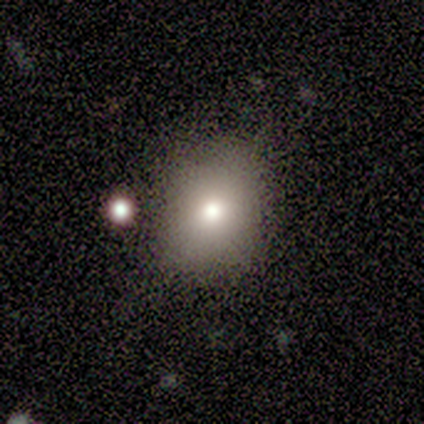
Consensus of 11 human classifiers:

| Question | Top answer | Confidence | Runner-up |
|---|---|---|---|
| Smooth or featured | smooth | 73% | featured or disk (18%) |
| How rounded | in between | 62% | round (38%) |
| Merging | none | 80% | minor disturbance (20%) |